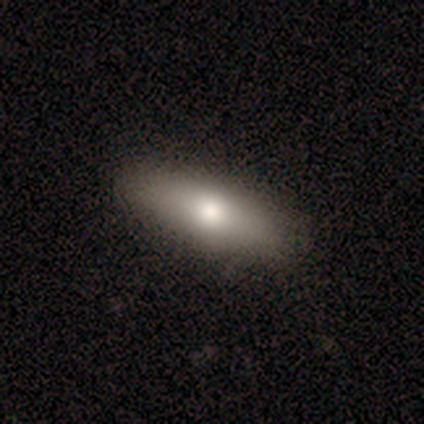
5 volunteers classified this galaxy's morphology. This is clearly a featured or disk galaxy (80%). It is likely viewed edge-on (75%). Edge-on bulge: clearly rounded (100%). Merging: clearly none (80%).